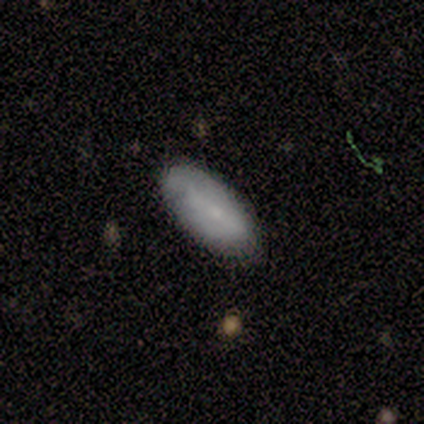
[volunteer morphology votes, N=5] A smooth galaxy with no disk features (80%) that is in between round and cigar-shaped (100%). Merging: none (60%).